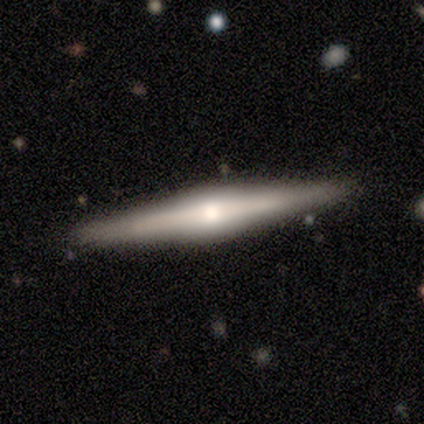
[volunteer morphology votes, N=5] A featured or disk galaxy (60%) viewed edge-on (100%) with a rounded central bulge (100%). Merging: none (100%).